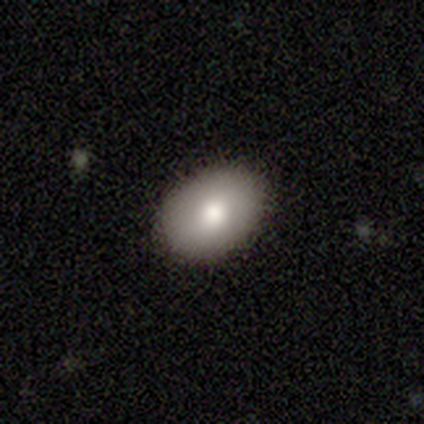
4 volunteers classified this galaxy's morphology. type=star or artifact (50%).